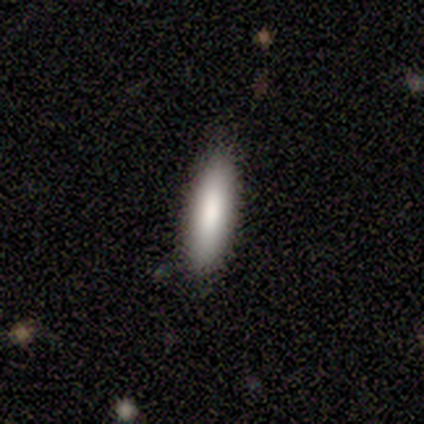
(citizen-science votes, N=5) Smooth or featured: smooth — 60% (featured or disk — 40%)
How rounded: in between — 67% (cigar-shaped — 33%)
Merging: none — 100%